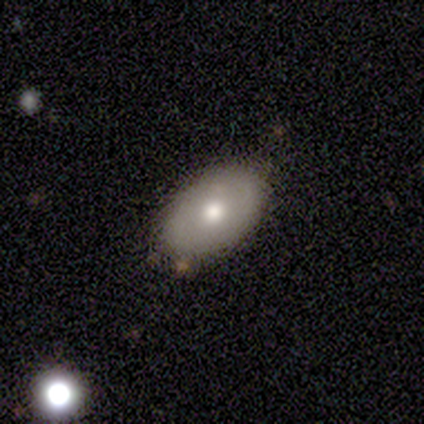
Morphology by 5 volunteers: Overall: featured or disk (60%; smooth 40%). Edge-on disk: no (100%). Bar: no (100%). Spiral arms: yes (67%; no 33%). Spiral arm count: 2 (50%, tied with can't tell). Spiral winding: tight (50%, tied with medium). Bulge size: moderate (67%; large 33%). Merging: none (100%).